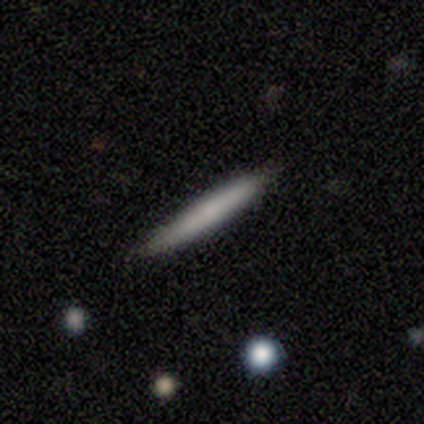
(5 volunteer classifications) Volunteers were most divided on "smooth or featured" (2-way tie): smooth: 40%, featured or disk: 40%, star or artifact: 20%. More confident: how rounded — cigar-shaped (100%); merging — none (75%).